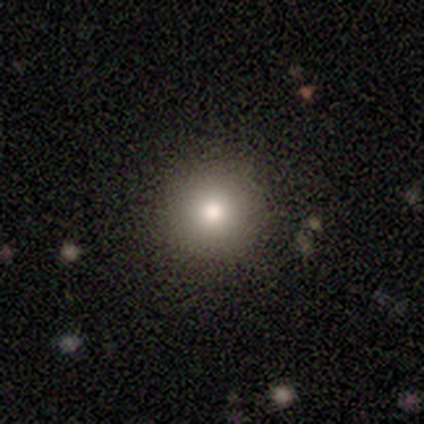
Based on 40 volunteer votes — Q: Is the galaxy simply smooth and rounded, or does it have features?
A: smooth — 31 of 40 (78%).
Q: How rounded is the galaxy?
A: round — 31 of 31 (100%).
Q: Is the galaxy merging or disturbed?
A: none — 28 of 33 (85%).